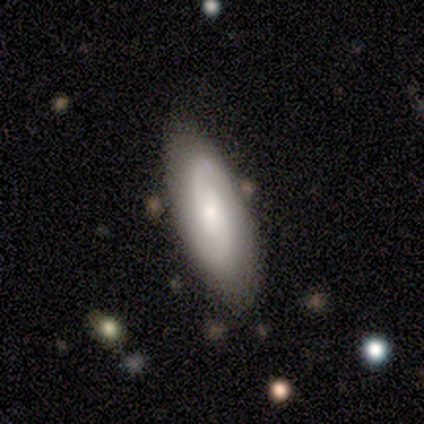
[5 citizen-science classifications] smooth-or-featured: featured or disk: 60% | smooth: 40% | star or artifact: 0%
  disk-edge-on: no: 100% | yes: 0%
    bar: no: 67% | weak: 33% | strong: 0%
    has-spiral-arms: yes: 100% | no: 0%
      spiral-winding: medium: 67% | tight: 33% | loose: 0%
      spiral-arm-count: 2: 100% | 1: 0% | 3: 0% | 4: 0% | more than 4: 0% | can't tell: 0%
    bulge-size: small: 67% | moderate: 33% | dominant: 0% | large: 0% | none: 0%
  merging: none: 80% | minor disturbance: 20% | major disturbance: 0% | merger: 0%